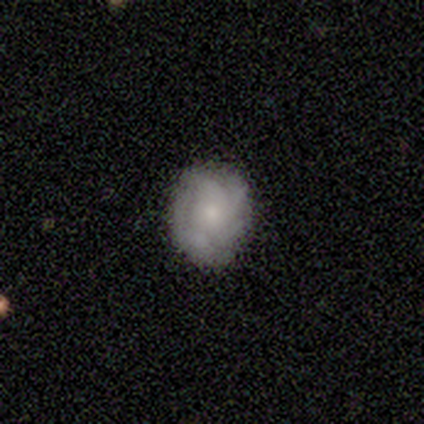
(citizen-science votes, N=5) Volunteers were most divided on "smooth or featured": featured or disk: 60%, smooth: 40%, star or artifact: 0%. More confident: edge-on disk — no (100%); bar — no (100%); spiral arms — yes (100%); merging — none (80%); spiral winding — medium (67%); spiral arm count — 4 (67%); bulge size — moderate (67%).